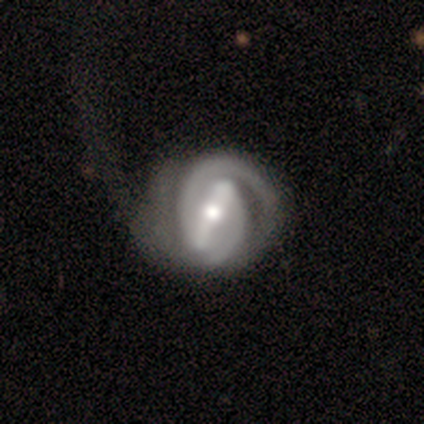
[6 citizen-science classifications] Volunteers were most divided on "merging" (2-way tie): none: 40%, major disturbance: 40%, minor disturbance: 20%, merger: 0%. More confident: edge-on disk — no (100%); bar — strong (100%); spiral arms — yes (100%); spiral arm count — 2 (100%); smooth or featured — featured or disk (83%); spiral winding — tight (80%); bulge size — small (60%).